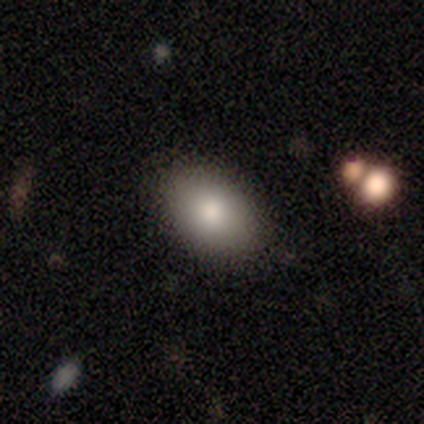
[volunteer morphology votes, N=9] smooth 89%, featured or disk 11%, star or artifact 0%. Down the decision tree: how rounded — in between (88%); merging — none (100%).